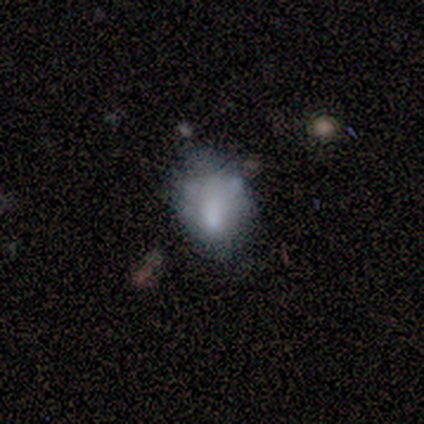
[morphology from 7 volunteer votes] Smooth or featured: featured or disk — 57% (star or artifact — 29%)
Edge-on disk: no — 100%
Bar: no — 100%
Spiral arms: no — 75% (yes — 25%)
Bulge size: moderate — 50% (large — 25%)
Merging: minor disturbance — 40% (tied with merger — 40%)